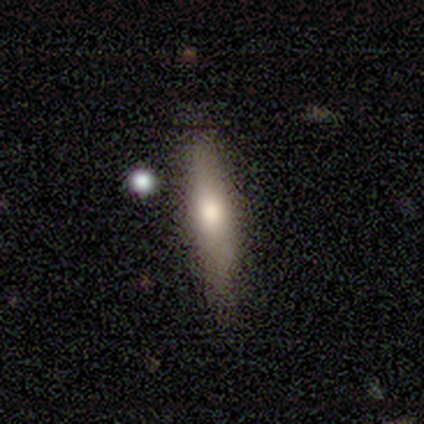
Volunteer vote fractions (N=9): This appears to be a smooth galaxy with no disk features (78%) that is cigar-shaped (86%). Merging: none (78%).